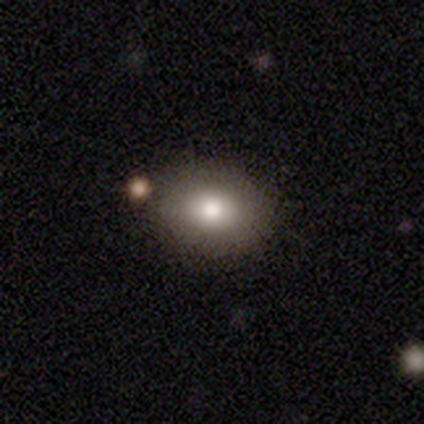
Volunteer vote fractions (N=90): Smooth or featured?
  - smooth: 83% *
  - star or artifact: 9%
  - featured or disk: 8%
How rounded?
  - in between: 56% *
  - round: 44%
  - cigar-shaped: 0%
Merging?
  - none: 80% *
  - minor disturbance: 16%
  - merger: 2%
  - major disturbance: 1%